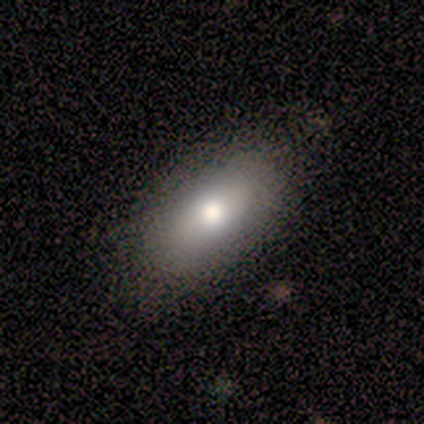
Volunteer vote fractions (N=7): Smooth or featured?
  - smooth: 86% *
  - featured or disk: 14%
  - star or artifact: 0%
How rounded?
  - in between: 100% *
  - round: 0%
  - cigar-shaped: 0%
Merging?
  - none: 100% *
  - minor disturbance: 0%
  - major disturbance: 0%
  - merger: 0%